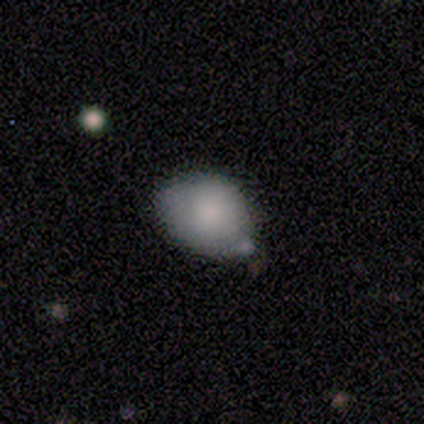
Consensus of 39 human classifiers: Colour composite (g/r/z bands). It shows a smooth galaxy with no disk features (87%) that is in between round and cigar-shaped (71%). Merging: none (54%).